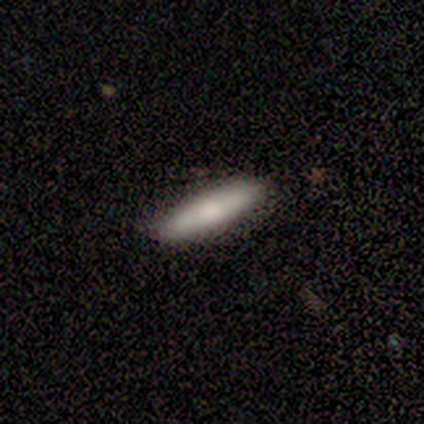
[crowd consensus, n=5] Morphology: type=featured or disk (80%); edge-on=yes (50%, tied with no); edge-on bulge=boxy (50%, tied with none); merging=none (100%).